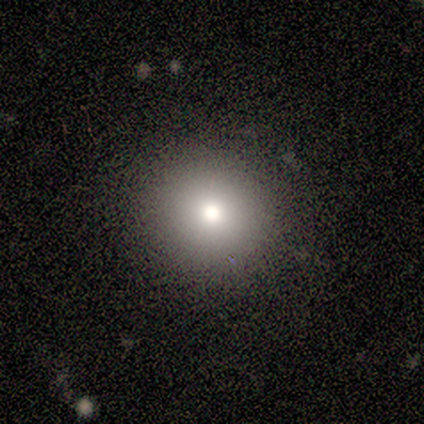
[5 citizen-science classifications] smooth-or-featured: smooth: 100% | featured or disk: 0% | star or artifact: 0%
  how-rounded: round: 100% | in between: 0% | cigar-shaped: 0%
  merging: none: 100% | minor disturbance: 0% | major disturbance: 0% | merger: 0%